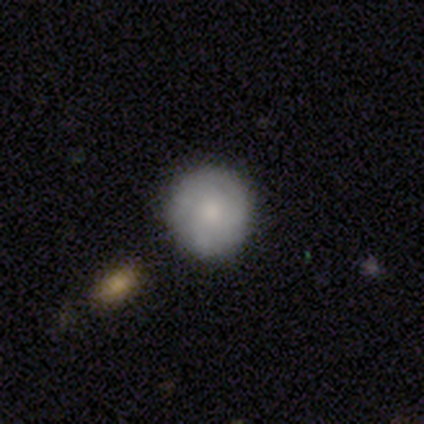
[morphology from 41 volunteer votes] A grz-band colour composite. It shows a smooth galaxy with no disk features (66%) that is round (100%). Merging: none (90%).